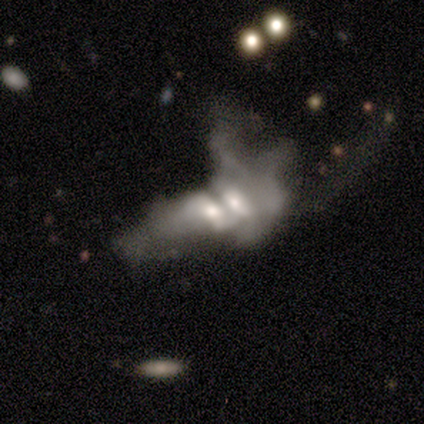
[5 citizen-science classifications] featured or disk 80%, smooth 20%, star or artifact 0%. Down the decision tree: edge-on disk — no (100%); bar — no (75%); spiral arms — no (100%); bulge size — moderate (75%); merging — merger (80%).